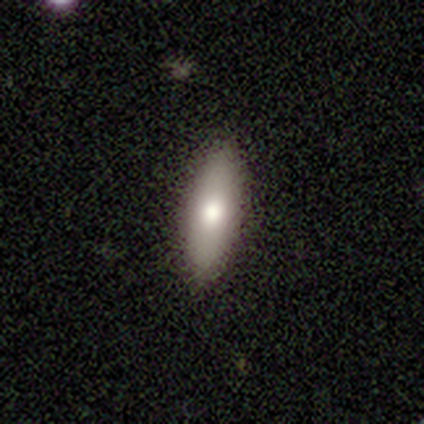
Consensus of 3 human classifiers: Q: Smooth or featured?
A: smooth (100%)
Q: How rounded?
A: cigar-shaped (67%); runner-up: in between (33%)
Q: Merging?
A: none (100%)